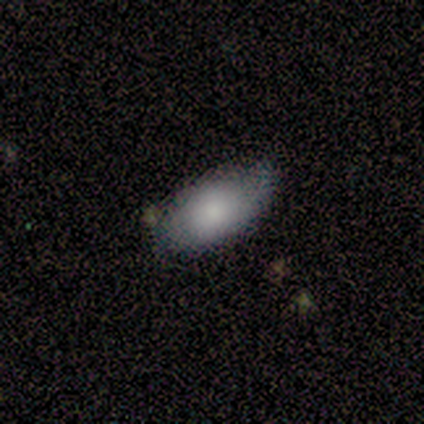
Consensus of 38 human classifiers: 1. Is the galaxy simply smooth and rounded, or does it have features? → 66% smooth, 24% featured or disk, 11% star or artifact.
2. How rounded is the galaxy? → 92% in between, 4% round, 4% cigar-shaped.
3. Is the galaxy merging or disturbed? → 74% none, 18% minor disturbance, 6% major disturbance, 3% merger.